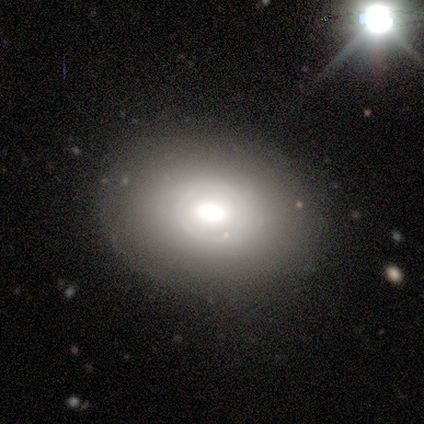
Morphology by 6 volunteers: Smooth or featured?
  - featured or disk: 83% *
  - smooth: 17%
  - star or artifact: 0%
Edge-on disk?
  - no: 100% *
  - yes: 0%
Bar?
  - no: 80% *
  - weak: 20%
  - strong: 0%
Spiral arms?
  - no: 100% *
  - yes: 0%
Bulge size?
  - moderate: 80% *
  - large: 20%
  - dominant: 0%
  - small: 0%
  - none: 0%
Merging?
  - none: 83% *
  - minor disturbance: 17%
  - major disturbance: 0%
  - merger: 0%